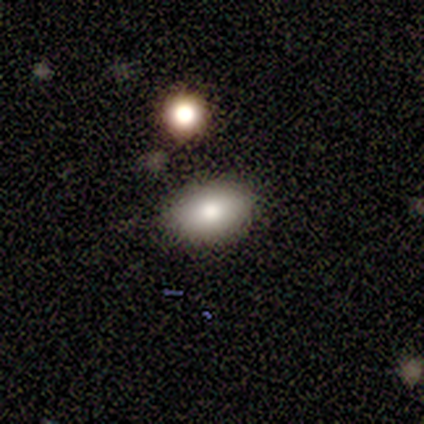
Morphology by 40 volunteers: This appears to be a smooth galaxy with no disk features (80%) that is in between round and cigar-shaped (91%). Merging: none (81%).